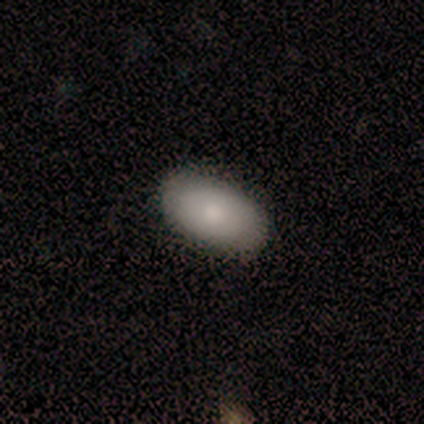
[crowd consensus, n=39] Smooth or featured?
  - smooth: 77% *
  - featured or disk: 23%
  - star or artifact: 0%
How rounded?
  - in between: 97% *
  - round: 3%
  - cigar-shaped: 0%
Merging?
  - none: 54% *
  - major disturbance: 3%
  - minor disturbance: 0%
  - merger: 0%